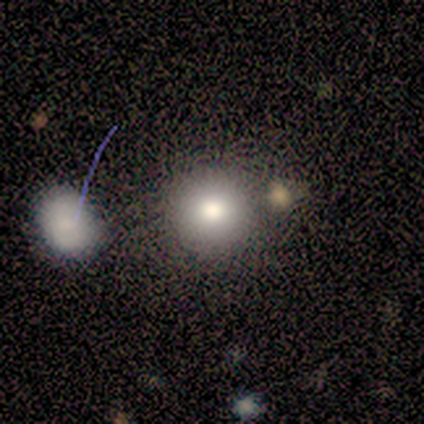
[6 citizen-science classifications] Smooth or featured? 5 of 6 (83%) said smooth. How rounded? 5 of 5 (100%) said round. Merging? 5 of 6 (83%) said none.